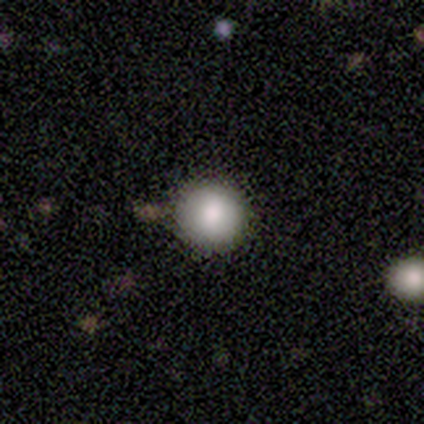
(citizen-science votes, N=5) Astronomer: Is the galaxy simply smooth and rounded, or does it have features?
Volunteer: smooth — 80%.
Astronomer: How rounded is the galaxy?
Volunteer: round — 100%.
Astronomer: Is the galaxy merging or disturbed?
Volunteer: none — 100%.